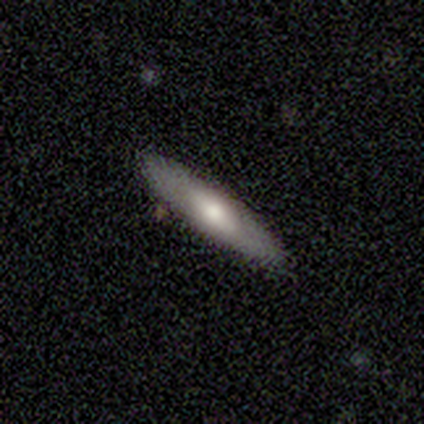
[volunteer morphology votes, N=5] Volunteers were most divided on "how rounded" (2-way tie): in between: 50%, cigar-shaped: 50%, round: 0%. More confident: merging — none (100%); smooth or featured — smooth (80%).